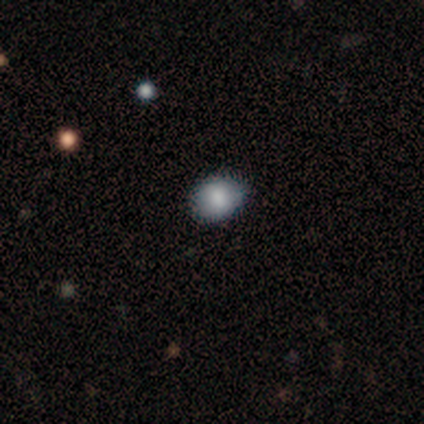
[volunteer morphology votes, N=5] Smooth or featured? smooth (100%)
How rounded? in between (80%)
Merging? minor disturbance (60%)